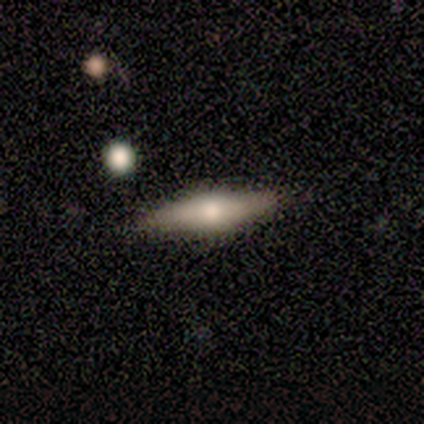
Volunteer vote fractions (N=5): A featured or disk galaxy (60%) viewed edge-on (100%) with a rounded central bulge (100%). Merging: none (100%).